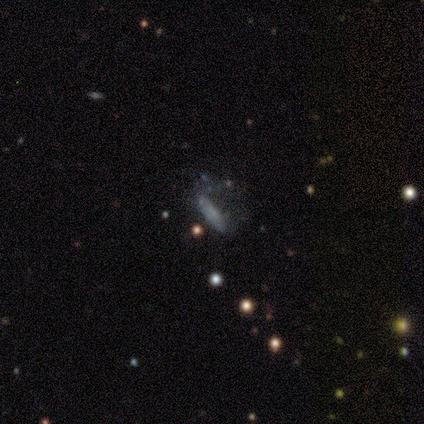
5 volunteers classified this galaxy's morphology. smooth-or-featured: featured or disk: 80% | star or artifact: 20% | smooth: 0%
  disk-edge-on: no: 75% | yes: 25%
    bar: no: 67% | weak: 33% | strong: 0%
    has-spiral-arms: no: 67% | yes: 33%
    bulge-size: none: 67% | small: 33% | dominant: 0% | large: 0% | moderate: 0%
  merging: minor disturbance: 50% | none: 25% | major disturbance: 25% | merger: 0%